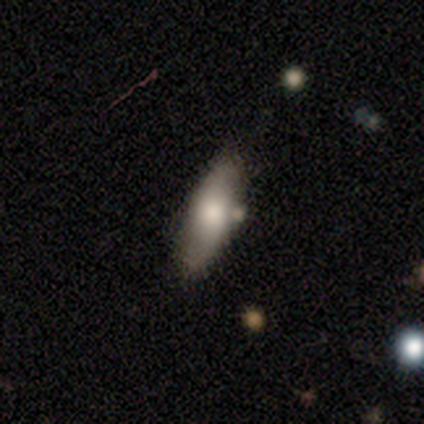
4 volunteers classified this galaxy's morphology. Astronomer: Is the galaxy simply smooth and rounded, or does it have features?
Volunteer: smooth — 75%.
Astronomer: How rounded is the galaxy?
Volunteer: cigar-shaped — 67%.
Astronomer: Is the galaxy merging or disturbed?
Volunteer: none — 75%.